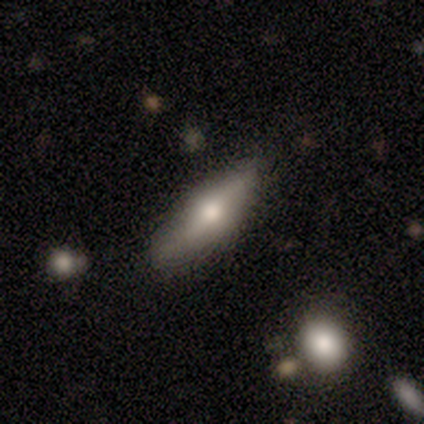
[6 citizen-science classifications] Morphology: type=smooth (67%); roundness=cigar-shaped (75%); merging=none (67%).